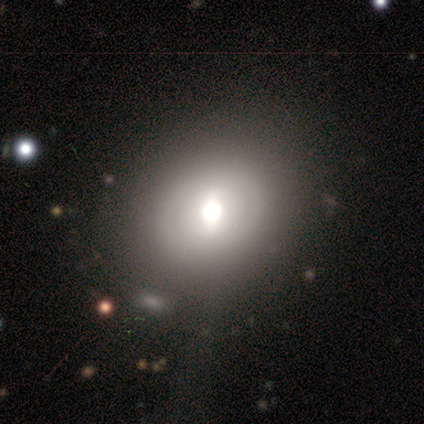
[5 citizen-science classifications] A featured or disk galaxy (80%) with a weak bar (67%), no spiral arms (100%) and a large central bulge (67%). Merging: none (60%).